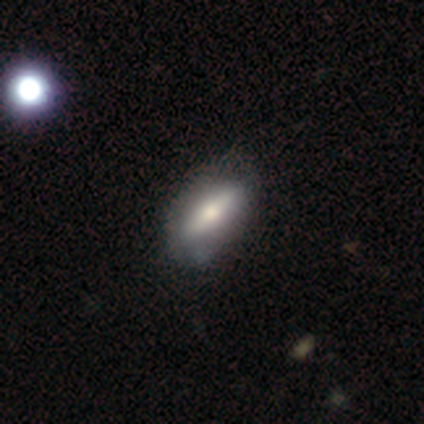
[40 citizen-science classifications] featured or disk 50%, smooth 45%, star or artifact 5%. Down the decision tree: edge-on disk — yes (65%); edge-on bulge — rounded (85%); merging — none (61%).